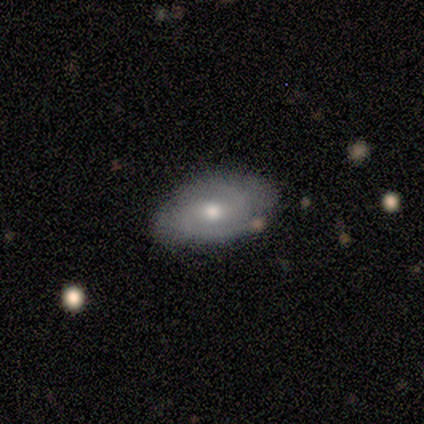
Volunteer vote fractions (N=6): Smooth or featured: featured or disk — 83% (smooth — 17%)
Edge-on disk: no — 100%
Bar: weak — 60% (strong — 20%)
Spiral arms: yes — 100%
Spiral winding: medium — 60% (tight — 20%)
Spiral arm count: 2 — 80% (can't tell — 20%)
Bulge size: small — 60% (moderate — 40%)
Merging: none — 83% (minor disturbance — 17%)